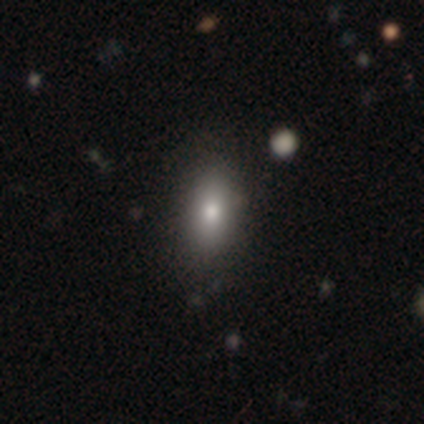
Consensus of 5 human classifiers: Smooth or featured? 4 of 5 (80%) said smooth. How rounded? 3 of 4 (75%) said in between. Merging? 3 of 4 (75%) said none.